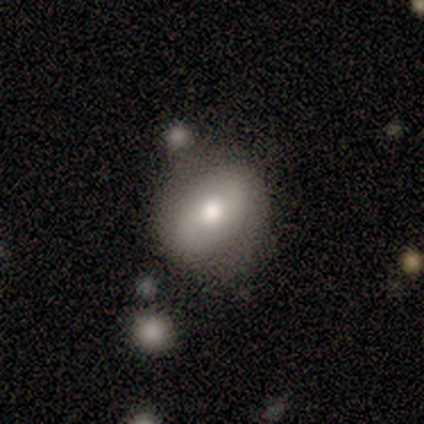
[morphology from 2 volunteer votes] This is possibly a smooth galaxy (50%, tied with featured or disk). How rounded: clearly round (100%). Merging: clearly minor disturbance (100%).